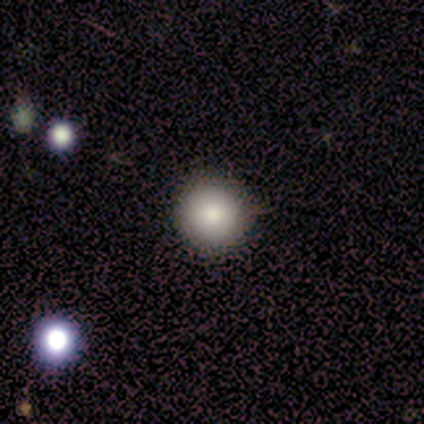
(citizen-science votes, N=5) Volunteers were most divided on "smooth or featured": smooth: 80%, star or artifact: 20%, featured or disk: 0%. More confident: how rounded — round (100%); merging — none (100%).